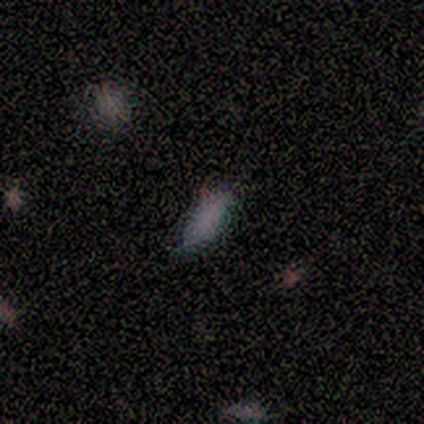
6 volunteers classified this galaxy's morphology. Q: Smooth or featured?
A: smooth (83%); runner-up: featured or disk (17%)
Q: How rounded?
A: in between (60%); runner-up: cigar-shaped (40%)
Q: Merging?
A: none (83%); runner-up: minor disturbance (17%)